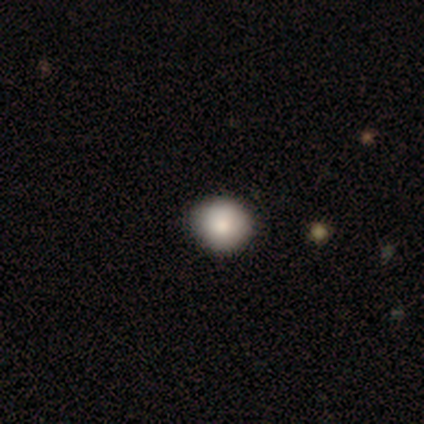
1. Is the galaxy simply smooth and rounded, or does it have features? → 80% smooth, 20% featured or disk, 0% star or artifact.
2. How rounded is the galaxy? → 100% round, 0% in between, 0% cigar-shaped.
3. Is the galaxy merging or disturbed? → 100% none, 0% minor disturbance, 0% major disturbance, 0% merger.